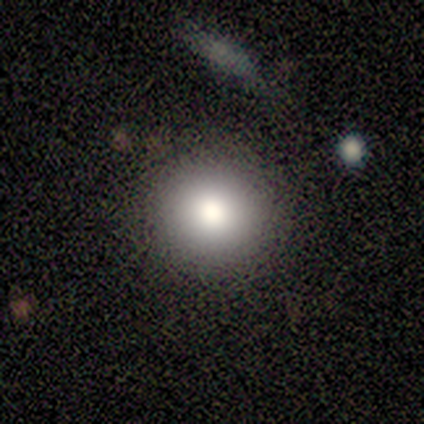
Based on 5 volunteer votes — This is marginally a smooth galaxy (40%, tied with featured or disk). How rounded: clearly round (100%). Merging: possibly none (50%, tied with minor disturbance).